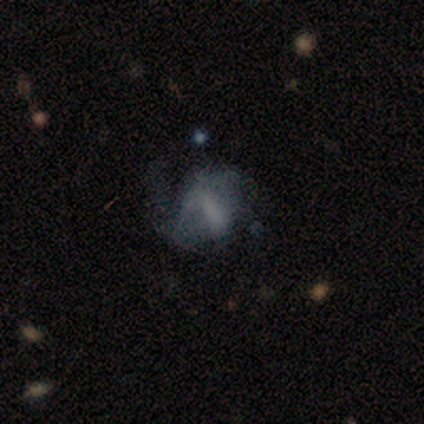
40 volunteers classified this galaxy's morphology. Volunteers were most divided on "merging": major disturbance: 52%, none: 30%, minor disturbance: 18%, merger: 0%. More confident: edge-on disk — no (92%); bulge size — none (73%); spiral arms — no (68%); bar — no (68%); smooth or featured — featured or disk (60%).